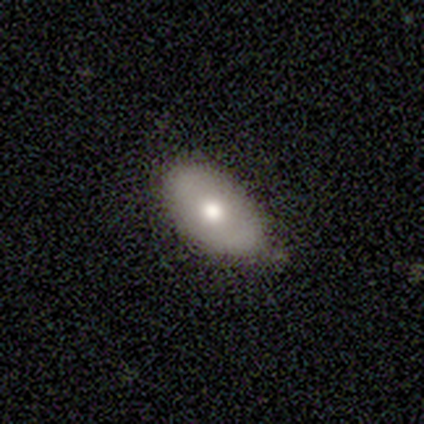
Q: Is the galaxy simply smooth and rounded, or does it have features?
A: smooth — 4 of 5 (80%).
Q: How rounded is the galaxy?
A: in between — 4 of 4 (100%).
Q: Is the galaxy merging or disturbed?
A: none — 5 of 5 (100%).